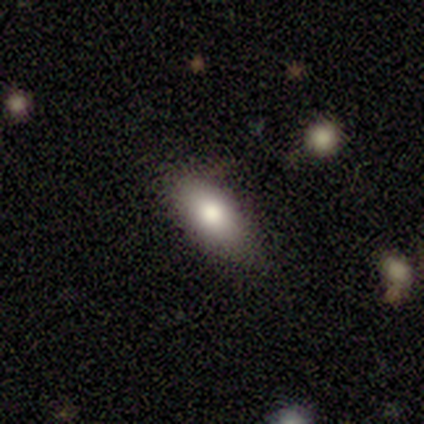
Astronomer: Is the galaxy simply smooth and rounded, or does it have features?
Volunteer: smooth — 60%.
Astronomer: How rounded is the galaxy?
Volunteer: in between — 100%.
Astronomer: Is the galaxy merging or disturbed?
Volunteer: none — 75%.